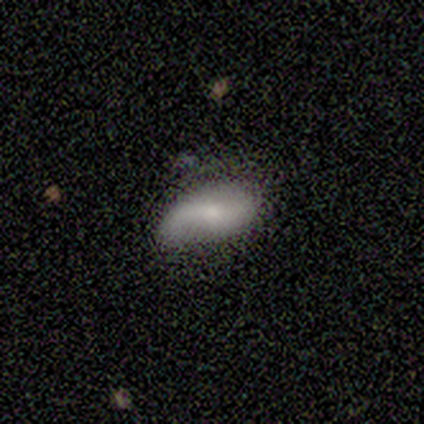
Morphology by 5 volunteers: featured or disk 80%, smooth 20%, star or artifact 0%. Down the decision tree: edge-on disk — no (100%); bar — weak (50%, tied with no); spiral arms — yes (50%, tied with no); spiral arm count — 2 (50%, tied with can't tell); spiral winding — tight (50%, tied with loose); bulge size — small (75%); merging — none (40%, tied with minor disturbance).